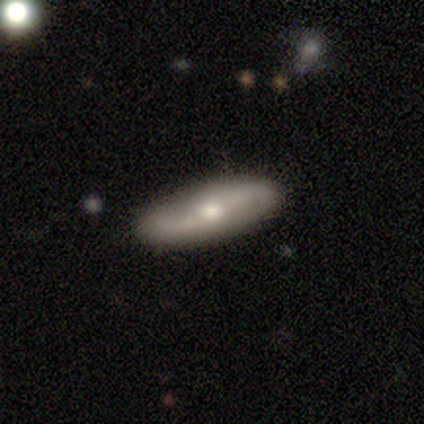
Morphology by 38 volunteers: This appears to be a featured or disk galaxy (76%) with no bar (52%), 2 (95%) loose (75%) spiral arms (87%) and a moderate central bulge (48%, tied with small). Merging: none (95%).